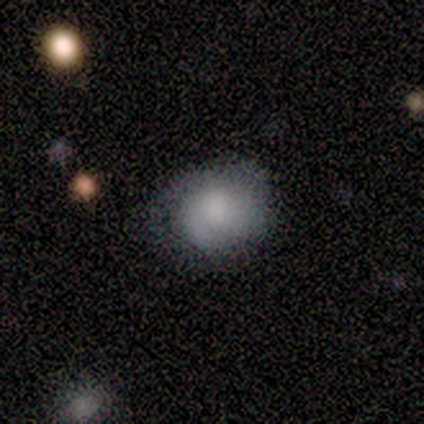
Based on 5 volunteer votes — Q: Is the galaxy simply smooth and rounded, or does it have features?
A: smooth — 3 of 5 (60%).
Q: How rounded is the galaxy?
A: round — 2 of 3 (67%).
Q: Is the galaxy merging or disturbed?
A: none — 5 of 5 (100%).